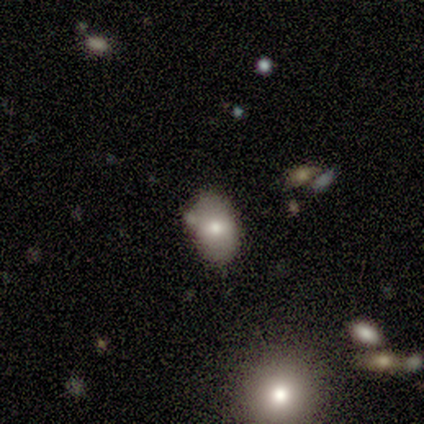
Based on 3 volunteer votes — Smooth or featured?
  - smooth: 67% *
  - featured or disk: 33%
  - star or artifact: 0%
How rounded?
  - in between: 100% *
  - round: 0%
  - cigar-shaped: 0%
Merging?
  - none: 67% *
  - minor disturbance: 33%
  - major disturbance: 0%
  - merger: 0%